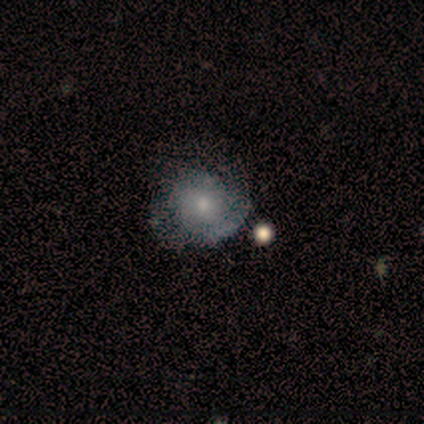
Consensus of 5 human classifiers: smooth_or_featured: smooth (p=0.60) [alt: featured or disk p=0.40]
how_rounded: round (p=0.67) [alt: in between p=0.33]
merging: none (p=0.60) [alt: minor disturbance p=0.20]